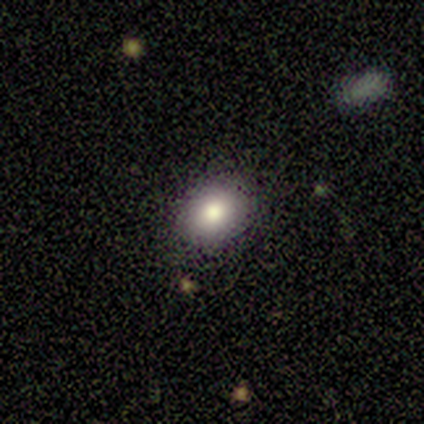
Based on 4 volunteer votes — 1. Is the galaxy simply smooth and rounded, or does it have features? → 75% smooth, 25% featured or disk, 0% star or artifact.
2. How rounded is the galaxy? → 67% round, 33% in between, 0% cigar-shaped.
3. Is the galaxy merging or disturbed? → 100% none, 0% minor disturbance, 0% major disturbance, 0% merger.